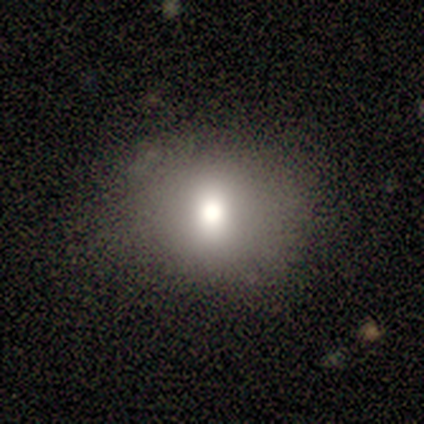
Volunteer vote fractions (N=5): Smooth or featured? 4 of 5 (80%) said smooth. How rounded? 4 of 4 (100%) said round. Merging? 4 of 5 (80%) said none.